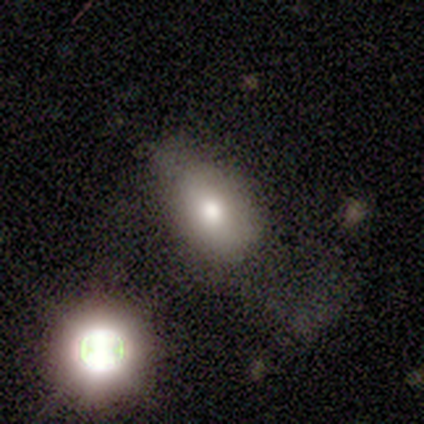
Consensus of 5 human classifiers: This is clearly a smooth galaxy (100%). How rounded: clearly in between (100%). Merging: likely none (60%).